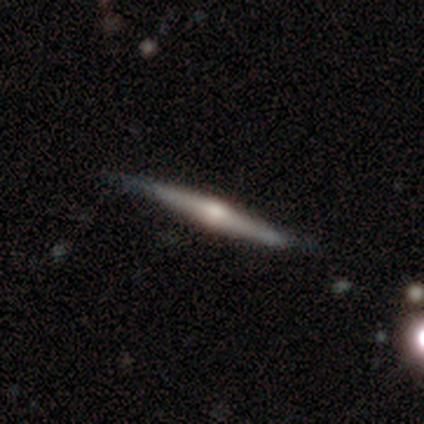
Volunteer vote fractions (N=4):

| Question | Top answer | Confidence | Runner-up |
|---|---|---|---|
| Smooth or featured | featured or disk | 100% | — |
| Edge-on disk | yes | 100% | — |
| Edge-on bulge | rounded | 100% | — |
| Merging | none | 100% | — |